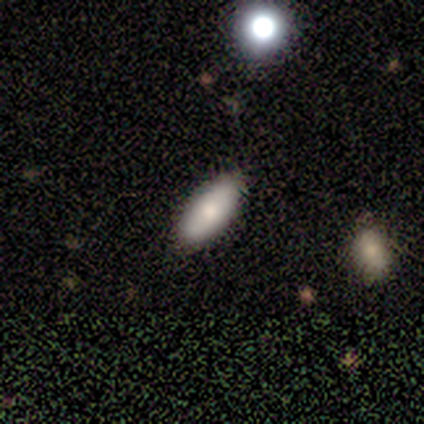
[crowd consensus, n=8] A smooth galaxy with no disk features (88%) that is in between round and cigar-shaped (71%). Merging: none (100%).